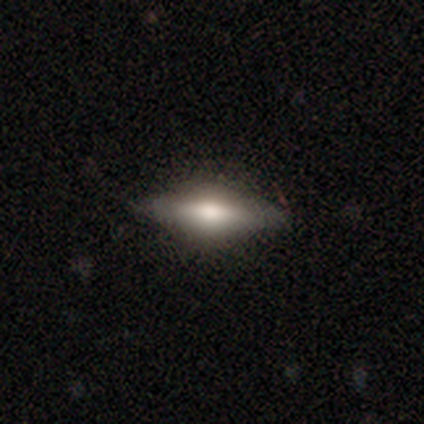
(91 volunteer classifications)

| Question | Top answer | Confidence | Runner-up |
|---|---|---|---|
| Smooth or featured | smooth | 49% | featured or disk (45%) |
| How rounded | in between | 53% | cigar-shaped (47%) |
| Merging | none | 84% | minor disturbance (12%) |